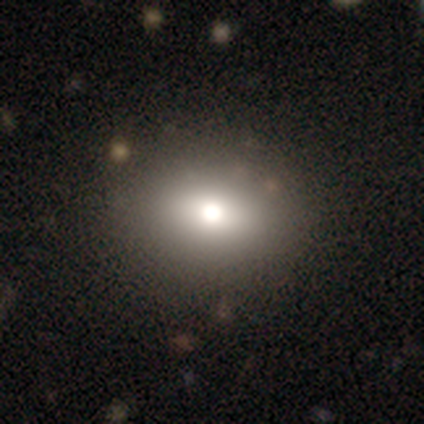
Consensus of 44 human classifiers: Smooth or featured: smooth — 66% (star or artifact — 18%)
How rounded: round — 62% (in between — 38%)
Merging: none — 81% (minor disturbance — 11%)